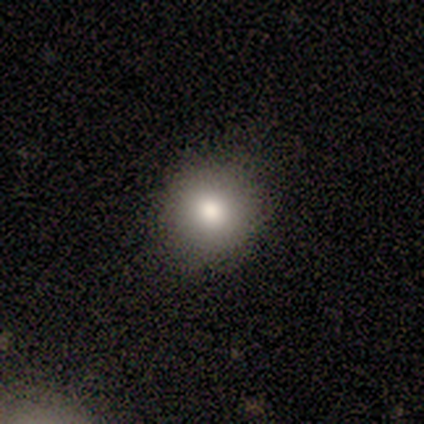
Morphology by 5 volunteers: type=smooth (80%); roundness=round (50%, tied with in between); merging=none (80%).